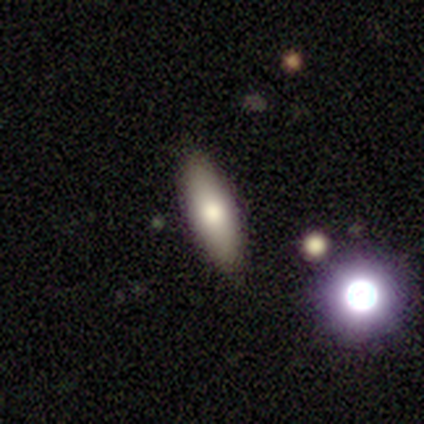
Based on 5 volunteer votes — Smooth or featured? 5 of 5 (100%) said smooth. How rounded? 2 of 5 (40%, tied with cigar-shaped) said in between. Merging? 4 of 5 (80%) said none.